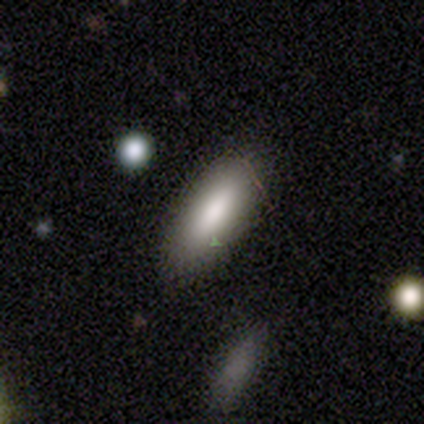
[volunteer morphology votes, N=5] type=smooth (80%); roundness=in between (75%); merging=none (100%).